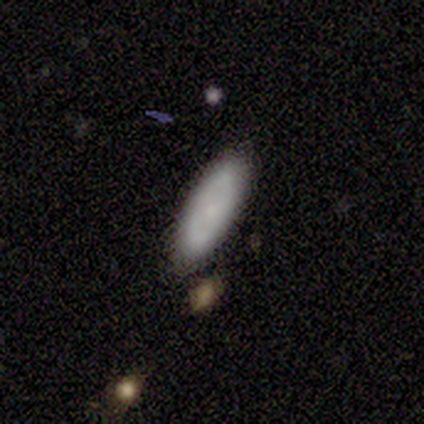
Overall: smooth (100%). How rounded: in between (60%; cigar-shaped 40%). Merging: none (100%).